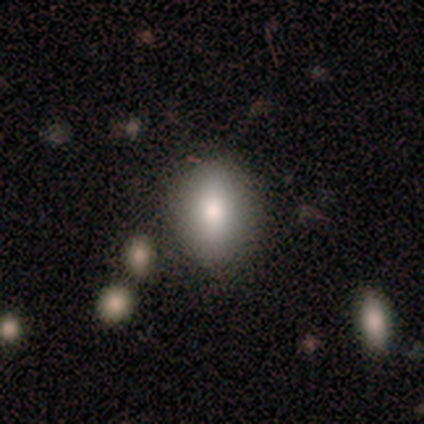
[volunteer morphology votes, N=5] Smooth or featured?
  - smooth: 100% *
  - featured or disk: 0%
  - star or artifact: 0%
How rounded?
  - in between: 100% *
  - round: 0%
  - cigar-shaped: 0%
Merging?
  - none: 60% *
  - minor disturbance: 40%
  - major disturbance: 0%
  - merger: 0%